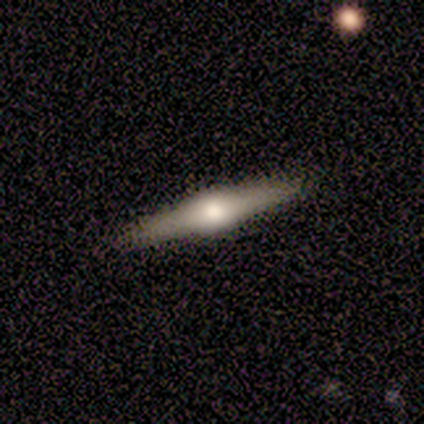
Smooth or featured? featured or disk (84%)
Edge-on disk? yes (97%)
Edge-on bulge? rounded (94%)
Merging? none (92%)